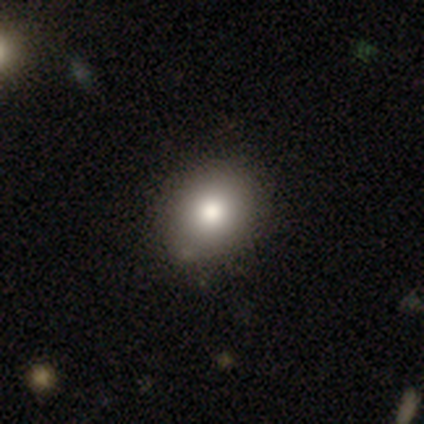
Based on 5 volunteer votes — Smooth or featured? smooth (60%)
How rounded? round (67%)
Merging? none (80%)